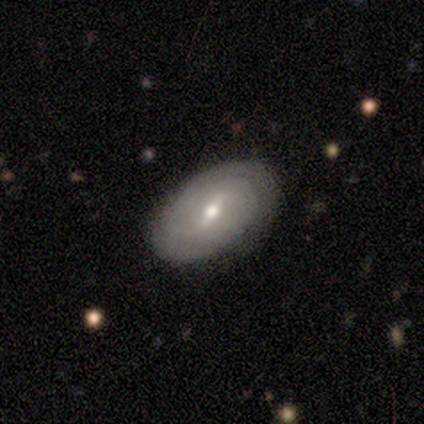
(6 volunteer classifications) Q: Smooth or featured?
A: featured or disk (67%); runner-up: smooth (33%)
Q: Edge-on disk?
A: no (100%)
Q: Bar?
A: strong (50%); tied with: no (50%)
Q: Spiral arms?
A: yes (75%); runner-up: no (25%)
Q: Spiral winding?
A: tight (67%); runner-up: loose (33%)
Q: Spiral arm count?
A: 2 (67%); runner-up: can't tell (33%)
Q: Bulge size?
A: moderate (50%); tied with: small (50%)
Q: Merging?
A: none (67%); runner-up: minor disturbance (33%)